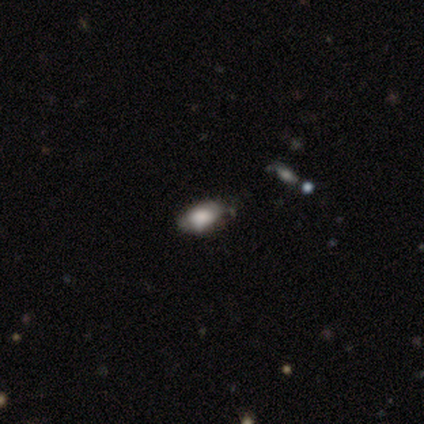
Smooth or featured? smooth (80%)
How rounded? in between (100%)
Merging? none (100%)